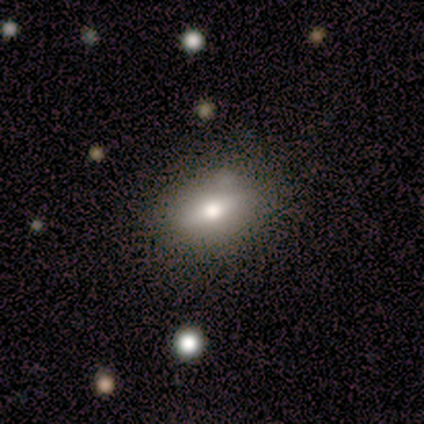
smooth-or-featured: smooth: 60% | star or artifact: 40% | featured or disk: 0%
  how-rounded: in between: 100% | round: 0% | cigar-shaped: 0%
  merging: none: 100% | minor disturbance: 0% | major disturbance: 0% | merger: 0%